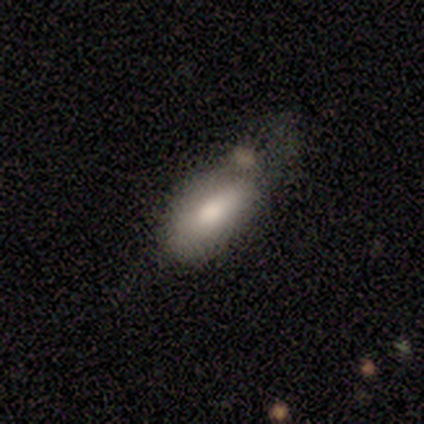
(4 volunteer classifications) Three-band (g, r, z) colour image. It shows a smooth galaxy with no disk features (75%) that is in between round and cigar-shaped (67%). Merging: minor disturbance (100%).